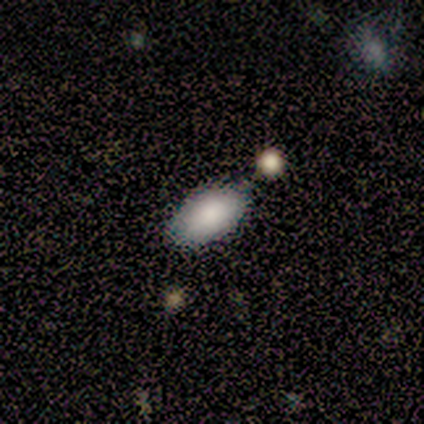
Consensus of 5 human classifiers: Overall: smooth (80%). How rounded: in between (100%). Merging: none (100%).